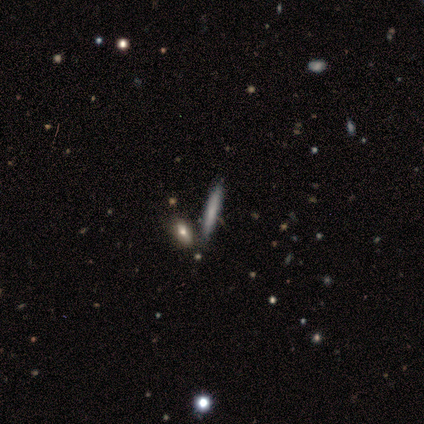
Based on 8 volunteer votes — A smooth galaxy with no disk features (75%) that is cigar-shaped (83%). Merging: none (88%).